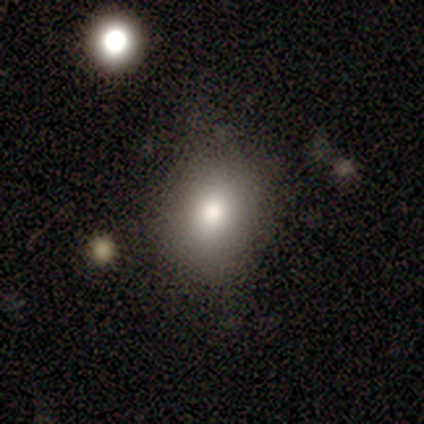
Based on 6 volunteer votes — This is likely a smooth galaxy (67%). How rounded: possibly round (50%, tied with in between). Merging: clearly none (100%).